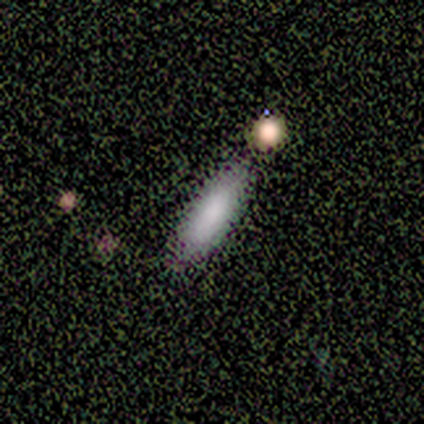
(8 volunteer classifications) Smooth or featured?
  - smooth: 100% *
  - featured or disk: 0%
  - star or artifact: 0%
How rounded?
  - in between: 62% *
  - cigar-shaped: 38%
  - round: 0%
Merging?
  - none: 88% *
  - merger: 12%
  - minor disturbance: 0%
  - major disturbance: 0%